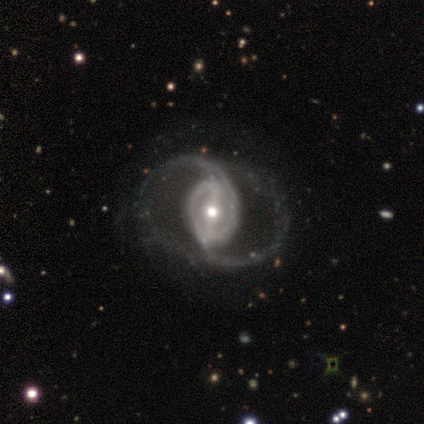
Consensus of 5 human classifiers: This is clearly a featured or disk galaxy (100%). It is clearly not viewed edge-on (100%). Bar: likely strong (60%). Spiral arm pattern: clearly yes (100%). Spiral arm count: clearly 2 (100%). Spiral winding: likely medium (60%). Central bulge: likely moderate (60%). Merging: clearly none (100%).